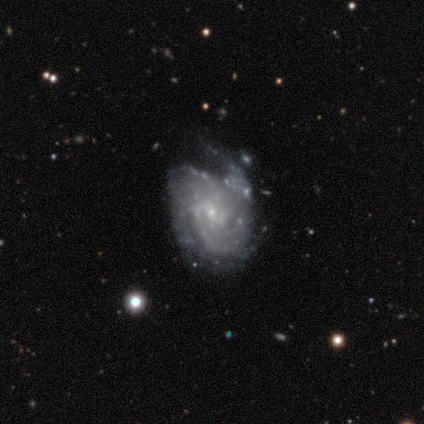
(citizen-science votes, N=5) Smooth or featured?
  - featured or disk: 80% *
  - star or artifact: 20%
  - smooth: 0%
Edge-on disk?
  - no: 100% *
  - yes: 0%
Bar?
  - no: 100% *
  - strong: 0%
  - weak: 0%
Spiral arms?
  - yes: 100% *
  - no: 0%
Spiral winding?
  - tight: 75% *
  - medium: 25%
  - loose: 0%
Spiral arm count?
  - can't tell: 50% *
  - 2: 25%
  - 3: 25%
  - 1: 0%
  - 4: 0%
  - more than 4: 0%
Bulge size?
  - small: 100% *
  - dominant: 0%
  - large: 0%
  - moderate: 0%
  - none: 0%
Merging?
  - none: 75% *
  - minor disturbance: 25%
  - major disturbance: 0%
  - merger: 0%